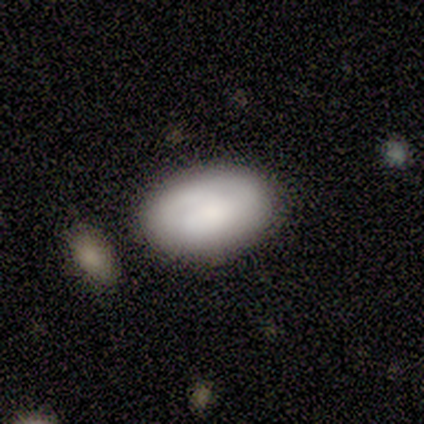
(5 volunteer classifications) Volunteers were most divided on "merging": none: 40%, minor disturbance: 20%, major disturbance: 20%, merger: 20%. More confident: how rounded — in between (100%); smooth or featured — smooth (80%).